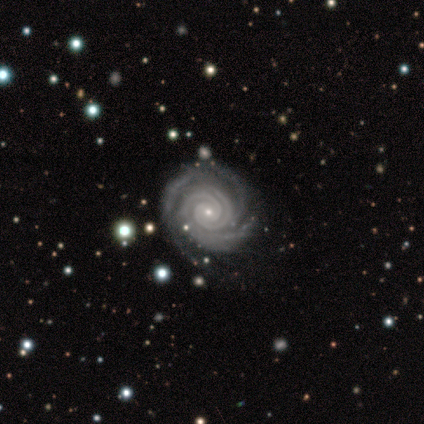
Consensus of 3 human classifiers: A featured or disk galaxy (100%) with a weak bar (67%), tight (67%) spiral arms (100%) and a small central bulge (100%).

Vote fractions:
- Smooth or featured? featured or disk: 100% / smooth: 0% / star or artifact: 0%
- Edge-on disk? no: 100% / yes: 0%
- Bar? weak: 67% / no: 33% / strong: 0%
- Spiral arms? yes: 100% / no: 0%
- Spiral winding? tight: 67% / medium: 33% / loose: 0%
- Spiral arm count? can't tell: 67% / 3: 33% / 1: 0% / 2: 0% / 4: 0% / more than 4: 0%
- Bulge size? small: 100% / dominant: 0% / large: 0% / moderate: 0% / none: 0%
- Merging? none: 33% (tied) / minor disturbance: 33% (tied) / major disturbance: 33% (tied) / merger: 0%